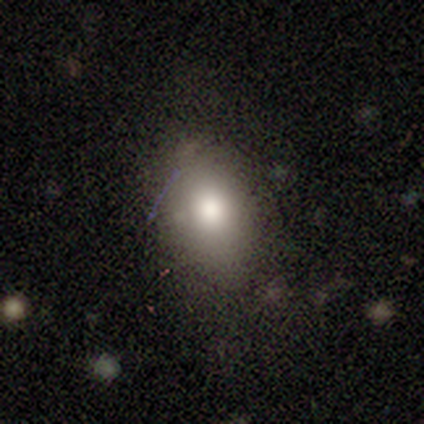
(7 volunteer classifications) smooth 71%, featured or disk 29%, star or artifact 0%. Down the decision tree: how rounded — in between (100%); merging — none (71%).